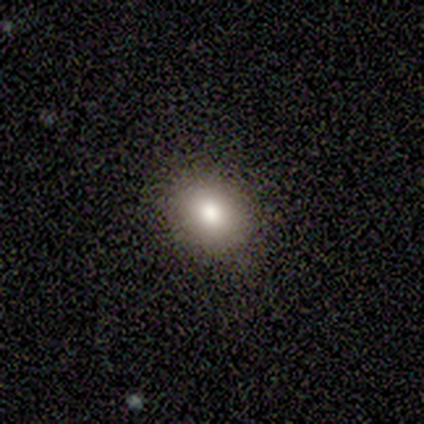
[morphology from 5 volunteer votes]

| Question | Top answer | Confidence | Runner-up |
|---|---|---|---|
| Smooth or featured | smooth | 100% | — |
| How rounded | round | 80% | in between (20%) |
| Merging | none | 80% | minor disturbance (20%) |